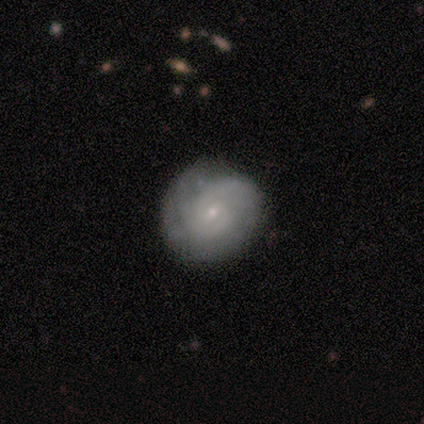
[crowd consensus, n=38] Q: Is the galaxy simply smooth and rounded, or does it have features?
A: featured or disk — 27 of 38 (71%).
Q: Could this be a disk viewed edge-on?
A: no — 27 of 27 (100%).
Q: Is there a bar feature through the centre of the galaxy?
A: no — 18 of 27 (67%).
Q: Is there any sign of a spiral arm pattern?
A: yes — 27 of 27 (100%).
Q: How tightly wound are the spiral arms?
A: tight — 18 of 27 (67%).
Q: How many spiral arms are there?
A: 2 — 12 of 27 (44%).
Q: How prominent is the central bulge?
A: small — 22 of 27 (81%).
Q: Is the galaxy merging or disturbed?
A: none — 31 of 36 (86%).